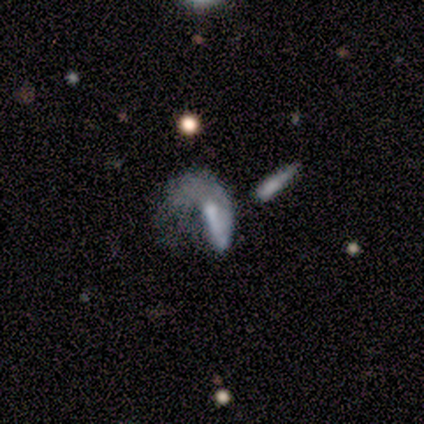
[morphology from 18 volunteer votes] smooth-or-featured: featured or disk: 89% | smooth: 11% | star or artifact: 0%
  disk-edge-on: no: 94% | yes: 6%
    bar: weak: 40% | no: 33% | strong: 27%
    has-spiral-arms: yes: 60% | no: 40%
      spiral-winding: loose: 56% | medium: 33% | tight: 11%
      spiral-arm-count: 1: 89% | can't tell: 11% | 2: 0% | 3: 0% | 4: 0% | more than 4: 0%
    bulge-size: small: 33% (tied) | none: 33% (tied) | moderate: 20% | large: 13% | dominant: 0%
  merging: major disturbance: 44% | none: 28% | merger: 17% | minor disturbance: 11%